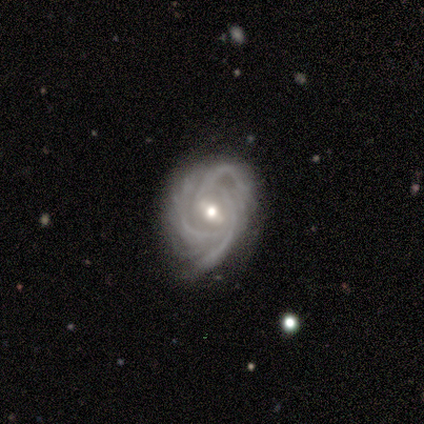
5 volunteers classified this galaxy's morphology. smooth-or-featured: featured or disk: 80% | star or artifact: 20% | smooth: 0%
  disk-edge-on: no: 100% | yes: 0%
    bar: strong: 50% (tied) | weak: 50% (tied) | no: 0%
    has-spiral-arms: yes: 100% | no: 0%
      spiral-winding: medium: 75% | tight: 25% | loose: 0%
      spiral-arm-count: 3: 50% (tied) | can't tell: 50% (tied) | 1: 0% | 2: 0% | 4: 0% | more than 4: 0%
    bulge-size: moderate: 75% | small: 25% | dominant: 0% | large: 0% | none: 0%
  merging: none: 50% (tied) | minor disturbance: 50% (tied) | major disturbance: 0% | merger: 0%